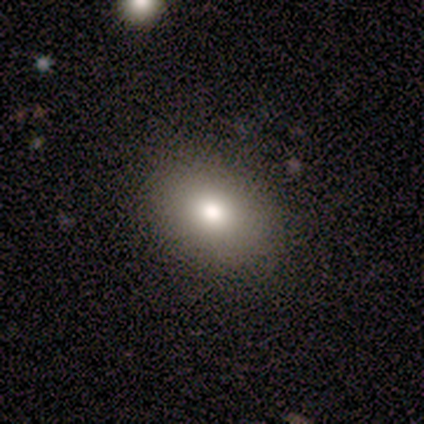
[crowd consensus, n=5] This is clearly a smooth galaxy (80%). How rounded: possibly round (50%, tied with in between). Merging: clearly none (100%).